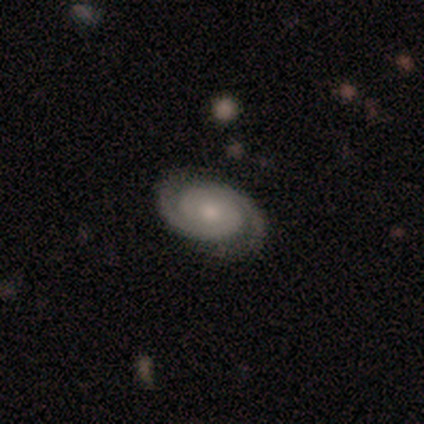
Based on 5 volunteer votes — A featured or disk galaxy (80%) with no bar (100%), 2 (100%) tight (100%) spiral arms (100%) and a moderate central bulge (75%). Merging: none (100%).